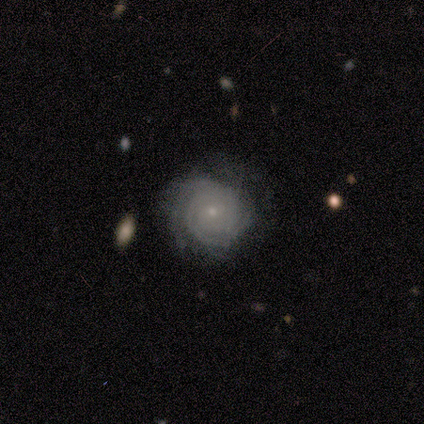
Volunteers were most divided on "spiral arm count": can't tell: 40%, 2: 21%, 3: 19%, 4: 9%, more than 4: 9%, 1: 2%. More confident: edge-on disk — no (98%); spiral arms — yes (96%); bulge size — small (88%); spiral winding — tight (87%); bar — no (84%); smooth or featured — featured or disk (82%); merging — none (71%).